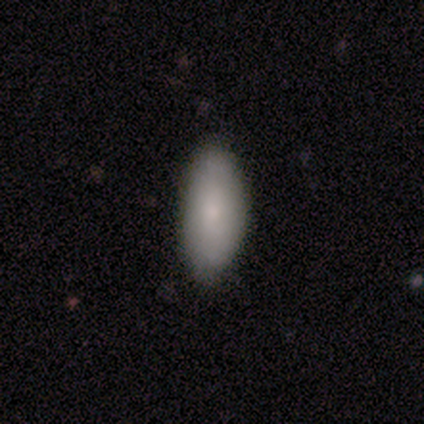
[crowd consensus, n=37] Smooth or featured: smooth — 76% (featured or disk — 16%)
How rounded: in between — 93% (cigar-shaped — 7%)
Merging: none — 88% (minor disturbance — 9%)